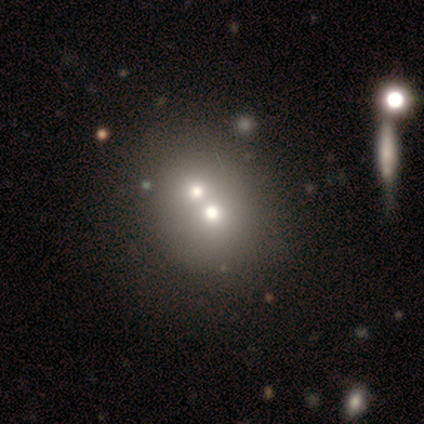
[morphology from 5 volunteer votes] Q: Smooth or featured?
A: smooth (40%); tied with: star or artifact (40%)
Q: How rounded?
A: round (50%); tied with: in between (50%)
Q: Merging?
A: merger (67%); runner-up: none (33%)